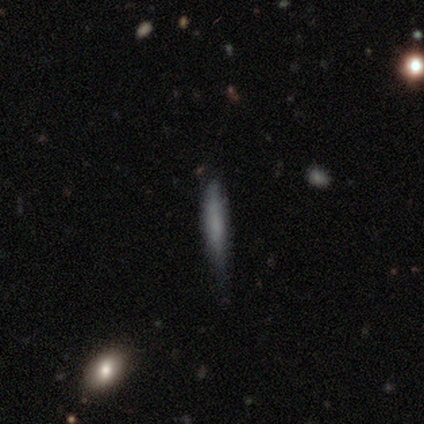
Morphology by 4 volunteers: Q: Smooth or featured?
A: smooth (75%); runner-up: featured or disk (25%)
Q: How rounded?
A: cigar-shaped (100%)
Q: Merging?
A: none (50%); tied with: minor disturbance (50%)